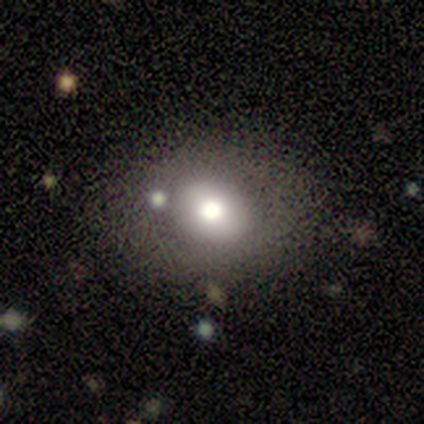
This appears to be a smooth galaxy with no disk features (56%) that is in between round and cigar-shaped (80%). Merging: none (67%).